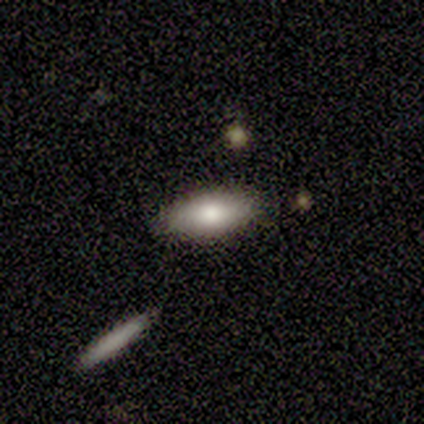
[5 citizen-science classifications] Q: Smooth or featured?
A: smooth (100%)
Q: How rounded?
A: in between (100%)
Q: Merging?
A: none (100%)